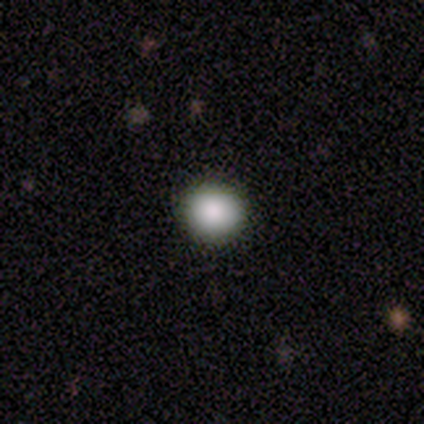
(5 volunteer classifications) Q: Smooth or featured?
A: smooth (80%); runner-up: star or artifact (20%)
Q: How rounded?
A: round (100%)
Q: Merging?
A: none (100%)